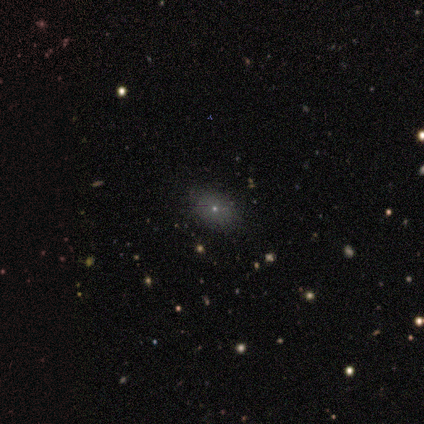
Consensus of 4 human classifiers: Smooth or featured? smooth (100%)
How rounded? in between (75%)
Merging? none (100%)